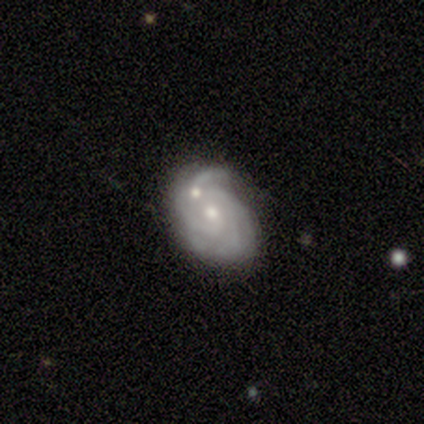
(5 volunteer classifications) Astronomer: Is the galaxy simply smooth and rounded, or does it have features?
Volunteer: featured or disk — 100%.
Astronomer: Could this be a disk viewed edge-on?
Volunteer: no — 100%.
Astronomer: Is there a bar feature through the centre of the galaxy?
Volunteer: no — 80%.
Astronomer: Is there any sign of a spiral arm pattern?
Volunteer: yes — 100%.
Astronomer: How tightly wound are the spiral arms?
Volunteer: tight — 80%.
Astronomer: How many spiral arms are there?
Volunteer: can't tell — 60%.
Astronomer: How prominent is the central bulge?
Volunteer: moderate — 60% (runner-up: small, 40%).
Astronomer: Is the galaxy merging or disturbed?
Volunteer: none — 80%.